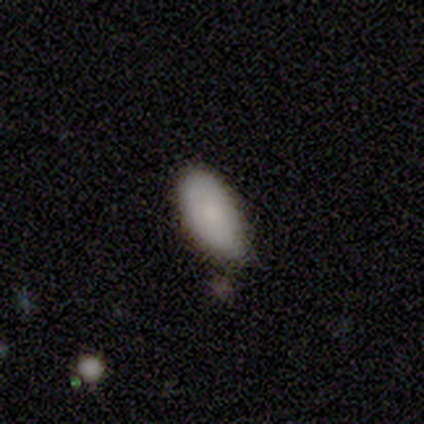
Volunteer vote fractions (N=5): Volunteers were most divided on "merging": none: 60%, minor disturbance: 20%, merger: 20%, major disturbance: 0%. More confident: smooth or featured — smooth (100%); how rounded — in between (100%).